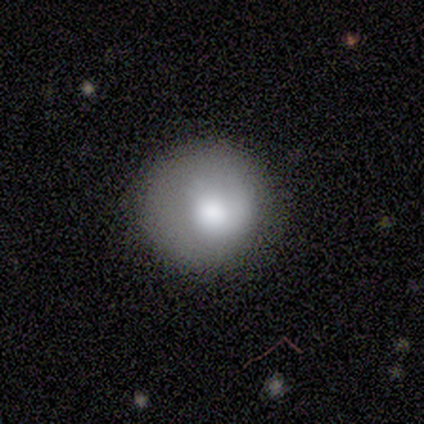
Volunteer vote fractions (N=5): Smooth or featured: smooth — 60% (featured or disk — 20%)
How rounded: round — 100%
Merging: none — 50% (tied with minor disturbance — 50%)